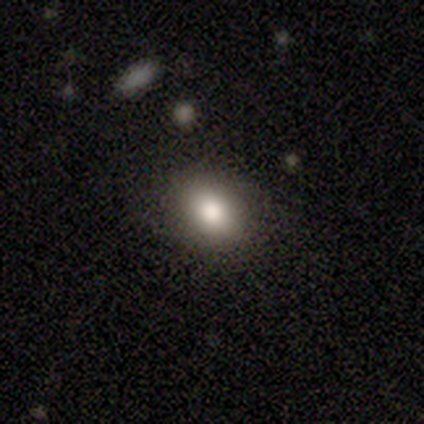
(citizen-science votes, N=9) smooth-or-featured: smooth: 89% | featured or disk: 11% | star or artifact: 0%
  how-rounded: in between: 62% | round: 38% | cigar-shaped: 0%
  merging: none: 89% | minor disturbance: 11% | major disturbance: 0% | merger: 0%